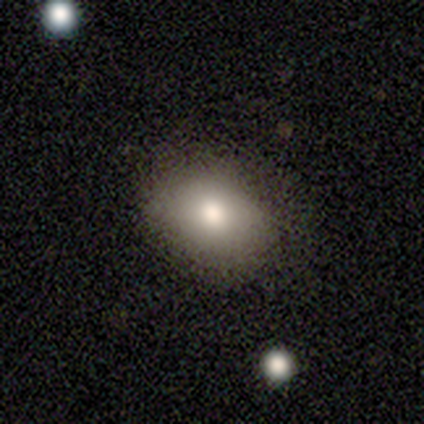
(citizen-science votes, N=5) Smooth or featured?
  - smooth: 60% *
  - featured or disk: 20%
  - star or artifact: 20%
How rounded?
  - in between: 67% *
  - round: 33%
  - cigar-shaped: 0%
Merging?
  - none: 50% * (tied)
  - minor disturbance: 50% * (tied)
  - major disturbance: 0%
  - merger: 0%